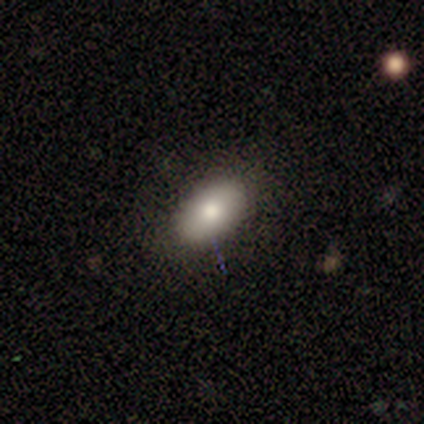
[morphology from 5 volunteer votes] smooth-or-featured: smooth: 80% | star or artifact: 20% | featured or disk: 0%
  how-rounded: in between: 100% | round: 0% | cigar-shaped: 0%
  merging: none: 75% | minor disturbance: 25% | major disturbance: 0% | merger: 0%